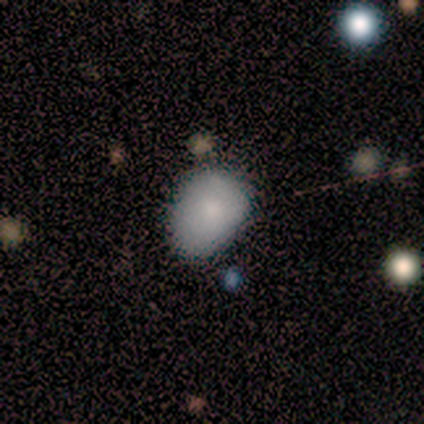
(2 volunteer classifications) This appears to be a smooth galaxy with no disk features (100%) that is in between round and cigar-shaped (100%). Merging: none (50%, tied with major disturbance).